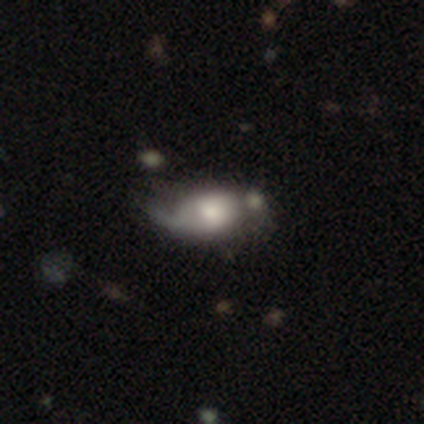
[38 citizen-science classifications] Morphology: type=smooth (61%); roundness=in between (87%); merging=minor disturbance (40%).